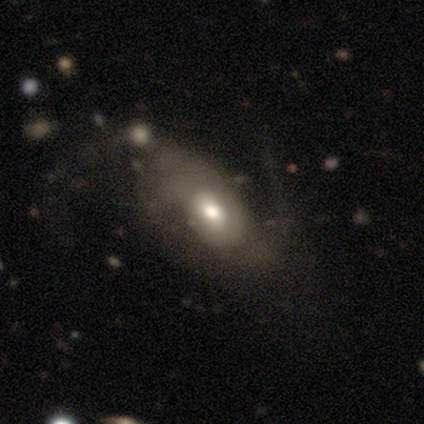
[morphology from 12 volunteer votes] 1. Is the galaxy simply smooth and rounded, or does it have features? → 75% featured or disk, 25% smooth, 0% star or artifact.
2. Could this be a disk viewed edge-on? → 89% no, 11% yes.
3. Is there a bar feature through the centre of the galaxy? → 62% weak, 25% no, 12% strong.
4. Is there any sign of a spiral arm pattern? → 62% yes, 38% no.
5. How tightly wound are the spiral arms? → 100% loose, 0% tight, 0% medium.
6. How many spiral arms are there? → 100% 2, 0% 1, 0% 3, 0% 4, 0% more than 4, 0% can't tell.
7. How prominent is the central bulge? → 75% moderate, 25% large, 0% dominant, 0% small, 0% none.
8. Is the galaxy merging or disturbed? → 33% none (tied), 33% minor disturbance (tied), 25% major disturbance, 8% merger.